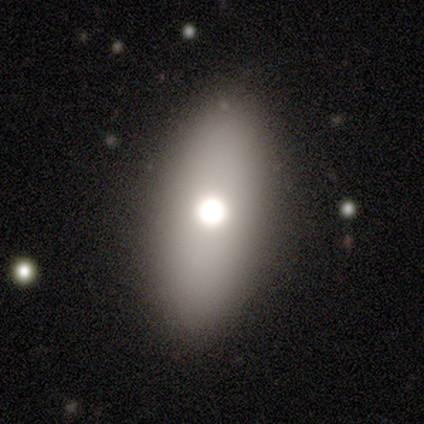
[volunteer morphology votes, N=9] smooth_or_featured: smooth (p=0.78) [alt: featured or disk p=0.22]
how_rounded: in between (p=0.86) [alt: cigar-shaped p=0.14]
merging: none (p=1.00)